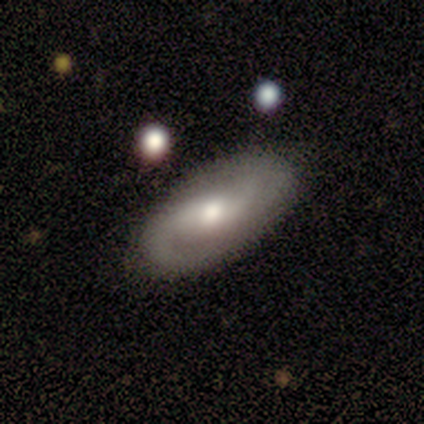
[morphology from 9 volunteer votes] This appears to be a featured or disk galaxy (78%) with a weak bar (57%), 2 (86%) loose (43%) spiral arms (100%) and a moderate central bulge (71%). Merging: none (89%).